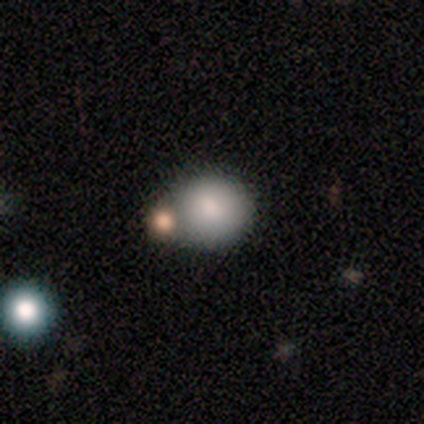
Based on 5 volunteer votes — Volunteers were most divided on "merging": none: 50%, minor disturbance: 25%, merger: 25%, major disturbance: 0%. More confident: smooth or featured — smooth (80%); how rounded — round (75%).